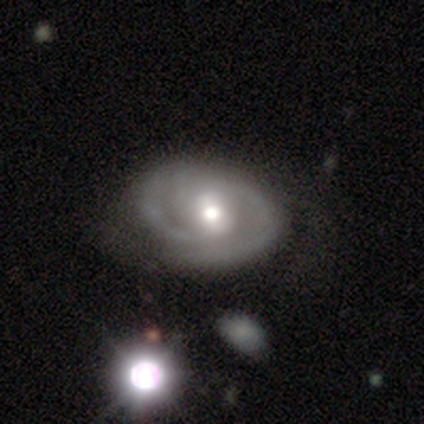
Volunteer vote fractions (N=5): smooth-or-featured: featured or disk: 60% | smooth: 20% | star or artifact: 20%
  disk-edge-on: no: 100% | yes: 0%
    bar: no: 67% | weak: 33% | strong: 0%
    has-spiral-arms: yes: 67% | no: 33%
      spiral-winding: tight: 50% (tied) | medium: 50% (tied) | loose: 0%
      spiral-arm-count: 1: 50% (tied) | 2: 50% (tied) | 3: 0% | 4: 0% | more than 4: 0% | can't tell: 0%
    bulge-size: moderate: 67% | large: 33% | dominant: 0% | small: 0% | none: 0%
  merging: none: 75% | minor disturbance: 25% | major disturbance: 0% | merger: 0%